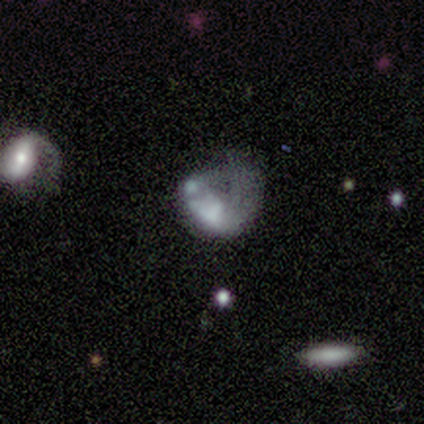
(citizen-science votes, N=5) This appears to be a smooth galaxy with no disk features (60%) that is round (67%). Merging: major disturbance (80%).